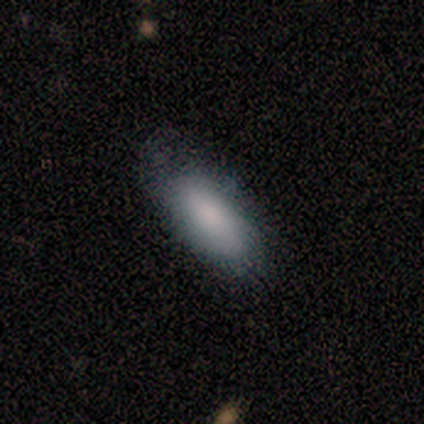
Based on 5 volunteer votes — smooth_or_featured: smooth (p=0.80) [alt: featured or disk p=0.20]
how_rounded: in between (p=1.00)
merging: none (p=1.00)